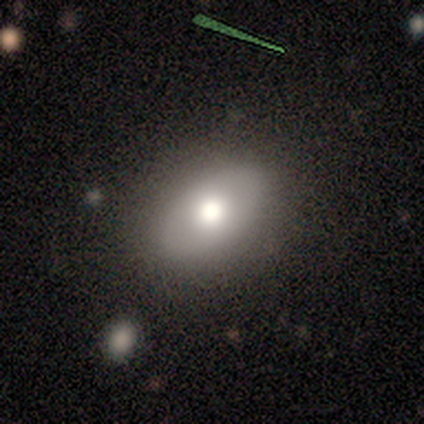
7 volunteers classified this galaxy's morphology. smooth 71%, featured or disk 29%, star or artifact 0%. Down the decision tree: how rounded — in between (100%); merging — none (100%).